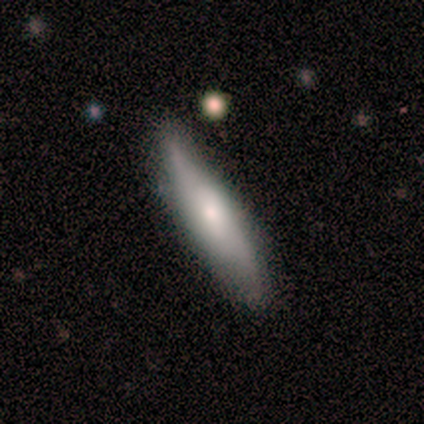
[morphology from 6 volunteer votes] A smooth galaxy with no disk features (33%, tied with featured or disk and star or artifact) that is in between round and cigar-shaped (50%, tied with cigar-shaped).

Vote fractions:
- Smooth or featured? smooth: 33% (tied) / featured or disk: 33% (tied) / star or artifact: 33% (tied)
- How rounded? in between: 50% (tied) / cigar-shaped: 50% (tied) / round: 0%
- Merging? none: 75% / minor disturbance: 25% / major disturbance: 0% / merger: 0%